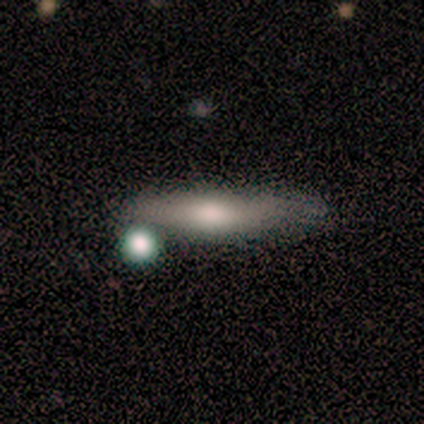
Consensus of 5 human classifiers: Smooth or featured? 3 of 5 (60%) said smooth. How rounded? 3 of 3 (100%) said cigar-shaped. Merging? 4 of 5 (80%) said none.